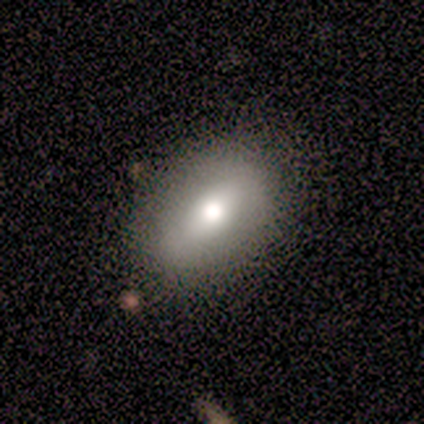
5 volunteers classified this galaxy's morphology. A smooth galaxy with no disk features (80%) that is in between round and cigar-shaped (100%). Merging: none (80%).